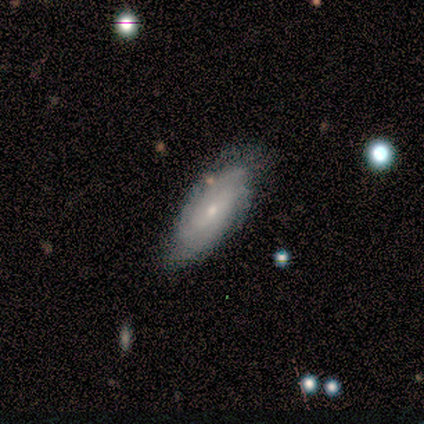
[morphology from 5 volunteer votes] This is likely a featured or disk galaxy (60%). It is likely not viewed edge-on (67%). Bar: clearly no (100%). Spiral arm pattern: clearly yes (100%). Spiral arm count: possibly more than 4 (50%, tied with can't tell). Spiral winding: possibly tight (50%, tied with medium). Central bulge: clearly small (100%). Merging: clearly none (100%).